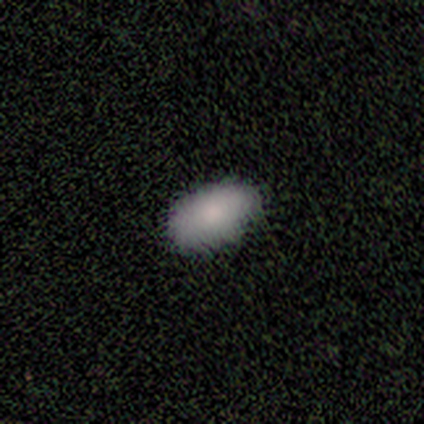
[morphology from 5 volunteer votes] Volunteers were most divided on "smooth or featured": smooth: 80%, featured or disk: 20%, star or artifact: 0%. More confident: how rounded — in between (100%); merging — none (80%).